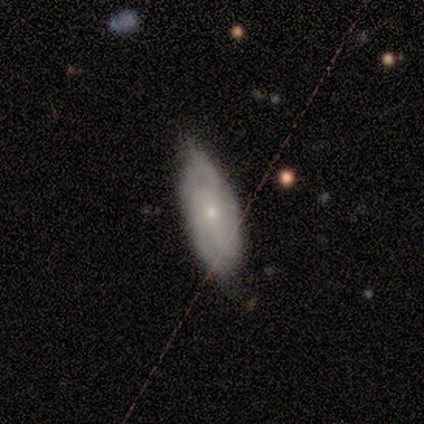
Overall: featured or disk (80%). Edge-on disk: no (75%). Bar: no (100%). Spiral arms: yes (100%). Spiral arm count: 2 (33%, tied with 3 and can't tell). Spiral winding: medium (67%; tight 33%). Bulge size: small (67%; moderate 33%). Merging: none (60%; minor disturbance 40%).